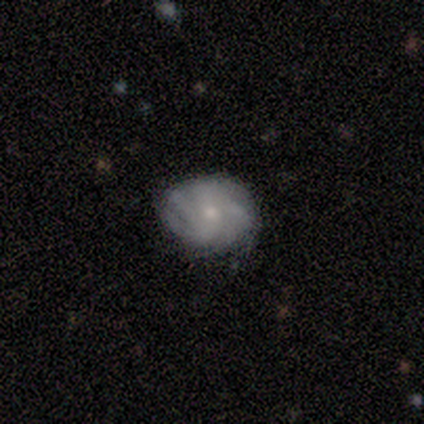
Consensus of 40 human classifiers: This is clearly a featured or disk galaxy (82%). It is clearly not viewed edge-on (97%). Bar: likely no (72%). Spiral arm pattern: clearly yes (94%). Spiral arm count: marginally 4 (43%). Spiral winding: possibly tight (50%). Central bulge: likely small (75%). Merging: likely none (66%).